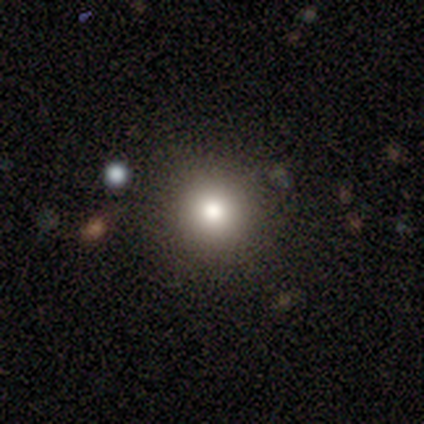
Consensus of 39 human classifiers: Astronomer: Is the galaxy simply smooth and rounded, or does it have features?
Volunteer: smooth — 82%.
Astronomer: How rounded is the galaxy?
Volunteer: round — 97%.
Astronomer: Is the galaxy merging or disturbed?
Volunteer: none — 88%.